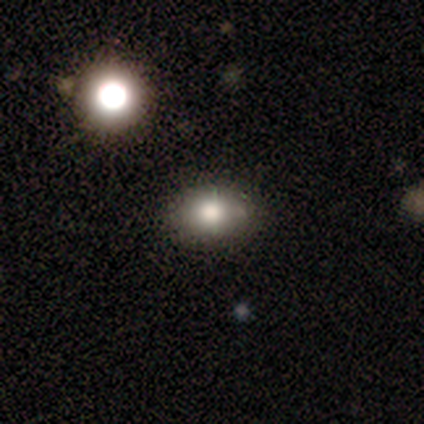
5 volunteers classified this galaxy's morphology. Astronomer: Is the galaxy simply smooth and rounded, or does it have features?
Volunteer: star or artifact — 60% (runner-up: smooth, 40%).